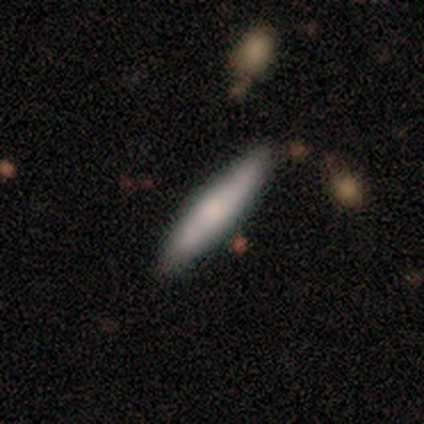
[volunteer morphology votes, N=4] smooth-or-featured: smooth: 75% | featured or disk: 25% | star or artifact: 0%
  how-rounded: cigar-shaped: 100% | round: 0% | in between: 0%
  merging: none: 75% | minor disturbance: 25% | major disturbance: 0% | merger: 0%